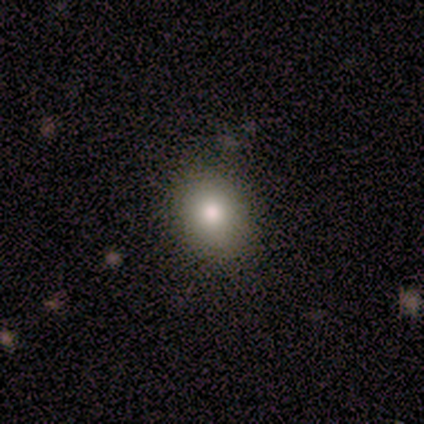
This appears to be a smooth galaxy with no disk features (100%) that is in between round and cigar-shaped (80%). Merging: none (100%).